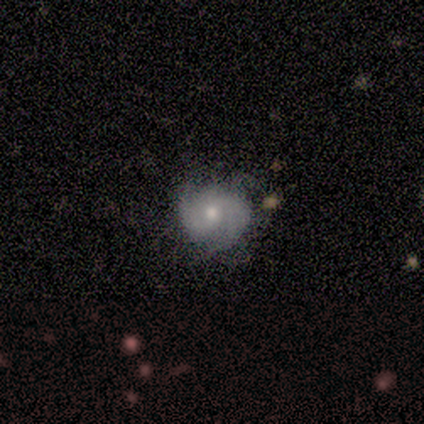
smooth-or-featured: featured or disk: 67% | smooth: 22% | star or artifact: 11%
  disk-edge-on: no: 100% | yes: 0%
    bar: weak: 67% | no: 33% | strong: 0%
    has-spiral-arms: yes: 83% | no: 17%
      spiral-winding: medium: 60% | tight: 40% | loose: 0%
      spiral-arm-count: 2: 100% | 1: 0% | 3: 0% | 4: 0% | more than 4: 0% | can't tell: 0%
    bulge-size: moderate: 83% | small: 17% | dominant: 0% | large: 0% | none: 0%
  merging: none: 88% | minor disturbance: 12% | major disturbance: 0% | merger: 0%